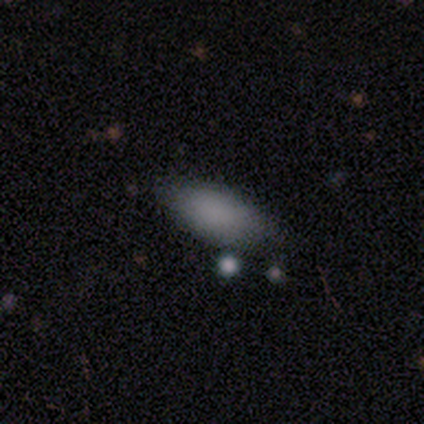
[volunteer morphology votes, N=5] Q: Smooth or featured?
A: smooth (100%)
Q: How rounded?
A: in between (100%)
Q: Merging?
A: none (100%)